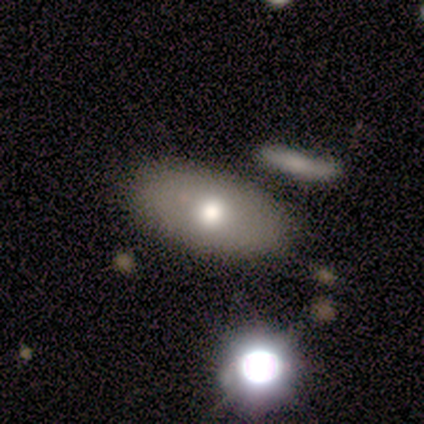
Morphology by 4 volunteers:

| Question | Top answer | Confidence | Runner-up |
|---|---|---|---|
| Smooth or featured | smooth | 100% | — |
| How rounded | round | 50% | tied: in between (50%) |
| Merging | none | 100% | — |